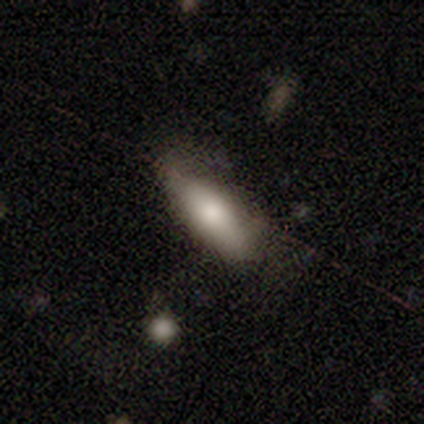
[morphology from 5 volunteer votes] smooth_or_featured: smooth (p=1.00)
how_rounded: in between (p=0.80) [alt: cigar-shaped p=0.20]
merging: minor disturbance (p=1.00)